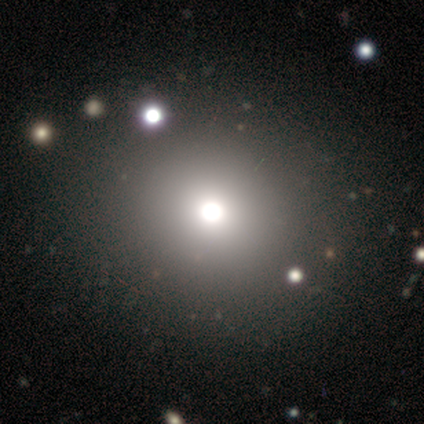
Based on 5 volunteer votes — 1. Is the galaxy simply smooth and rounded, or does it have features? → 40% smooth (tied), 40% star or artifact (tied), 20% featured or disk.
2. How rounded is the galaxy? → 100% round, 0% in between, 0% cigar-shaped.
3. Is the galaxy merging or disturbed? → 100% none, 0% minor disturbance, 0% major disturbance, 0% merger.